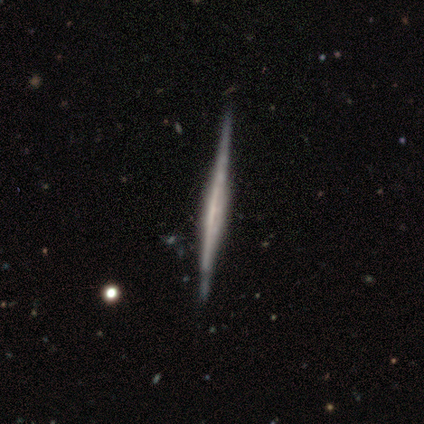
featured or disk 100%, smooth 0%, star or artifact 0%. Down the decision tree: edge-on disk — yes (100%); edge-on bulge — none (80%); merging — none (100%).